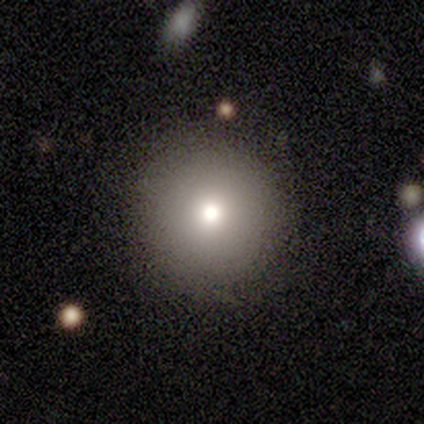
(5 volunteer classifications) Smooth or featured?
  - smooth: 80% *
  - featured or disk: 20%
  - star or artifact: 0%
How rounded?
  - round: 100% *
  - in between: 0%
  - cigar-shaped: 0%
Merging?
  - none: 100% *
  - minor disturbance: 0%
  - major disturbance: 0%
  - merger: 0%